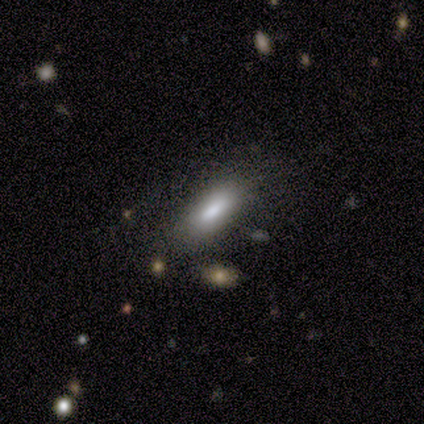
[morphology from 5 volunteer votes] smooth-or-featured: smooth: 80% | star or artifact: 20% | featured or disk: 0%
  how-rounded: in between: 50% (tied) | cigar-shaped: 50% (tied) | round: 0%
  merging: none: 75% | minor disturbance: 25% | major disturbance: 0% | merger: 0%